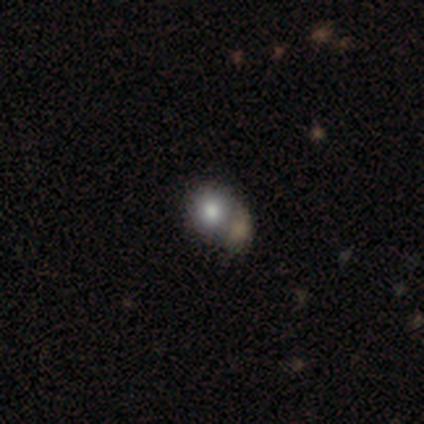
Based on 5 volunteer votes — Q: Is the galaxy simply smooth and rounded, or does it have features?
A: smooth — 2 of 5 (40%, tied with star or artifact).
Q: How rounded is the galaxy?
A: round — 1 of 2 (50%, tied with in between).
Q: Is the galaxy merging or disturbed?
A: none — 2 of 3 (67%).